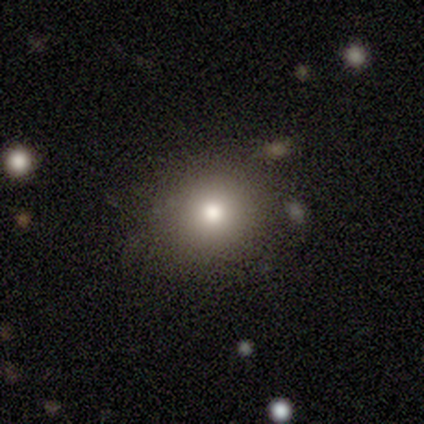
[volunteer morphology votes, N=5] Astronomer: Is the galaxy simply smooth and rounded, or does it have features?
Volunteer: smooth — 60%.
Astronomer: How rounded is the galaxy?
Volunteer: round — 67%.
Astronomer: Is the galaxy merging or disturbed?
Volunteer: none — 100%.